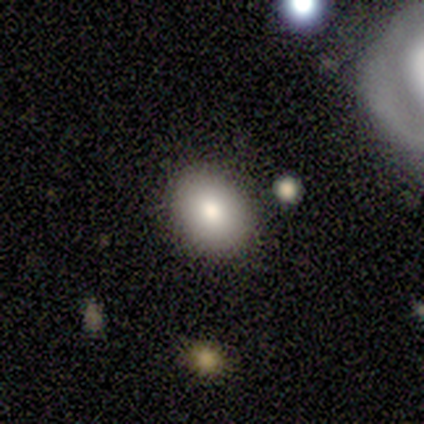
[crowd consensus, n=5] Smooth or featured? 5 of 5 (100%) said smooth. How rounded? 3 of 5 (60%) said in between. Merging? 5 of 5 (100%) said none.